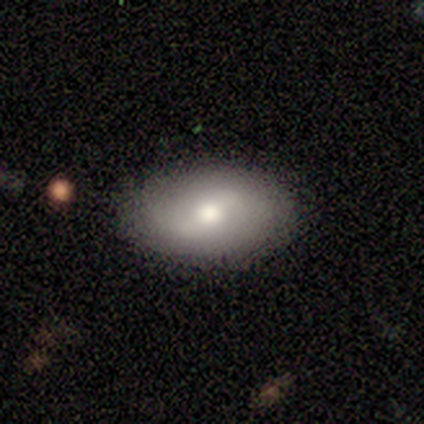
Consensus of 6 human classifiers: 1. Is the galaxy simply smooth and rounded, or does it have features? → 67% featured or disk, 33% smooth, 0% star or artifact.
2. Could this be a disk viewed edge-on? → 100% no, 0% yes.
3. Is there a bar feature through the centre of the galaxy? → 75% no, 25% weak, 0% strong.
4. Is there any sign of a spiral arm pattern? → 75% yes, 25% no.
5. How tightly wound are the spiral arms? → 100% medium, 0% tight, 0% loose.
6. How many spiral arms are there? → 100% 2, 0% 1, 0% 3, 0% 4, 0% more than 4, 0% can't tell.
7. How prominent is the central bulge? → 100% moderate, 0% dominant, 0% large, 0% small, 0% none.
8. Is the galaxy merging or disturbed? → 100% none, 0% minor disturbance, 0% major disturbance, 0% merger.